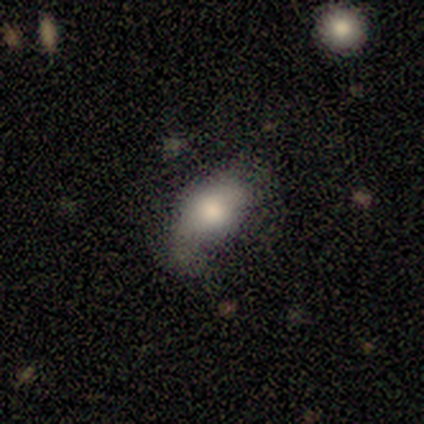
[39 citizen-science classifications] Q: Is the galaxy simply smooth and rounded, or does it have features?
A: smooth — 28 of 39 (72%).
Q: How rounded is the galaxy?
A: in between — 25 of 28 (89%).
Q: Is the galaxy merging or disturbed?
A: none — 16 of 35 (46%).